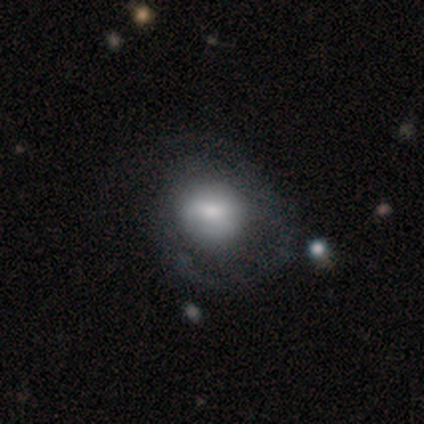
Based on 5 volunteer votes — This is clearly a smooth galaxy (100%). How rounded: clearly round (80%). Merging: likely none (60%).